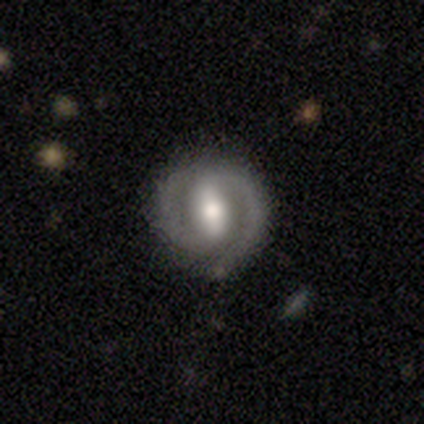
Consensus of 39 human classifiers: Smooth or featured? featured or disk (82%)
Edge-on disk? no (97%)
Bar? strong (61%)
Spiral arms? yes (94%)
Spiral winding? tight (59%)
Spiral arm count? 2 (93%)
Bulge size? moderate (68%)
Merging? none (85%)